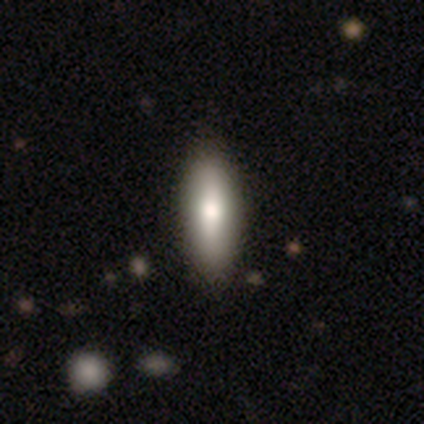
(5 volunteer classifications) Volunteers were most divided on "how rounded": cigar-shaped: 60%, in between: 40%, round: 0%. More confident: smooth or featured — smooth (100%); merging — none (100%).